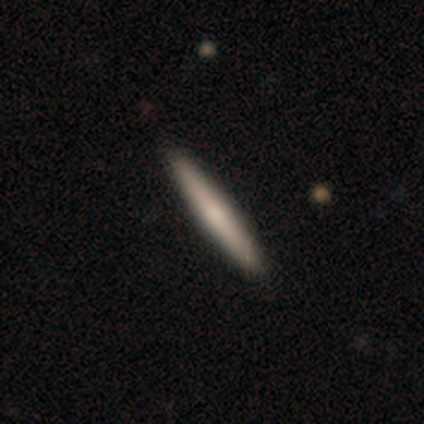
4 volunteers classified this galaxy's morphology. type=smooth (50%); roundness=cigar-shaped (100%); merging=none (100%).